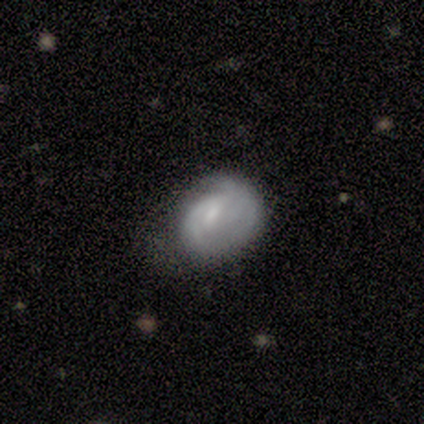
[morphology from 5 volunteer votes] type=featured or disk (80%); edge-on=no (100%); bar=no (75%); spiral arms=yes (75%); winding=tight (67%); arm count=1 (33%, tied with 2 and can't tell); bulge=small (50%); merging=none (40%, tied with major disturbance).